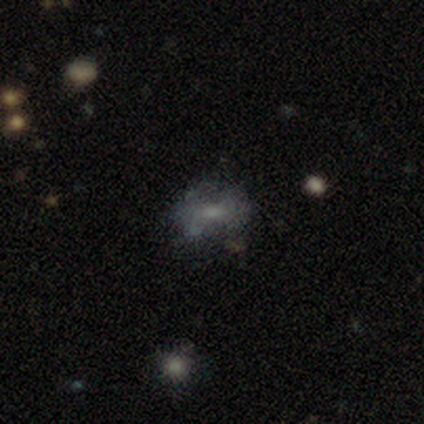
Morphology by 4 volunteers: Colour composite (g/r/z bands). It shows a featured or disk galaxy (50%, tied with star or artifact) with a weak bar (50%, tied with no), no spiral arms (100%) and a moderate central bulge (50%, tied with none). Merging: major disturbance (50%, tied with merger).